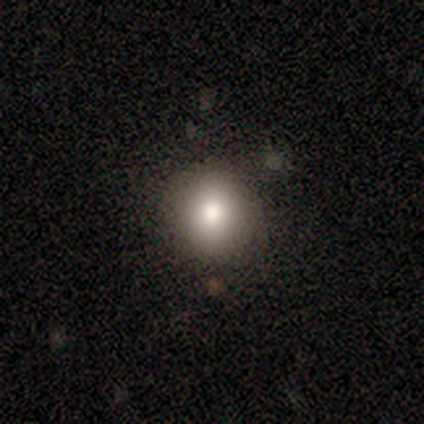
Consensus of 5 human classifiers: Smooth or featured? smooth (100%)
How rounded? round (100%)
Merging? none (80%)